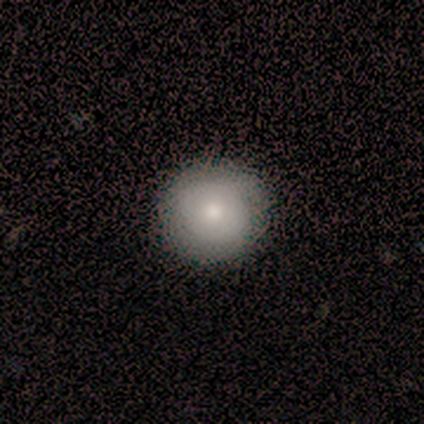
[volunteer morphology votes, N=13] smooth_or_featured: smooth (p=0.92) [alt: featured or disk p=0.08]
how_rounded: round (p=1.00)
merging: none (p=0.92) [alt: minor disturbance p=0.08]